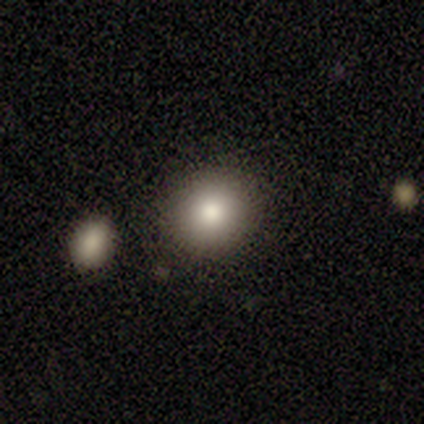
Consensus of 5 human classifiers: This is likely a smooth galaxy (60%). How rounded: clearly round (100%). Merging: clearly none (100%).